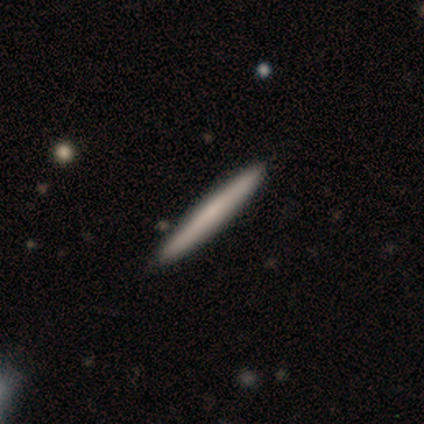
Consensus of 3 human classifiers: Smooth or featured?
  - smooth: 100% *
  - featured or disk: 0%
  - star or artifact: 0%
How rounded?
  - cigar-shaped: 100% *
  - round: 0%
  - in between: 0%
Merging?
  - none: 100% *
  - minor disturbance: 0%
  - major disturbance: 0%
  - merger: 0%